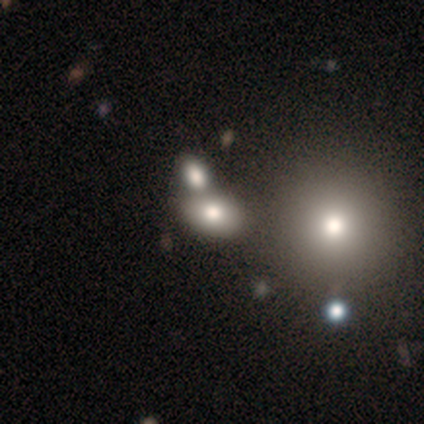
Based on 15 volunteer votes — A smooth galaxy with no disk features (60%) that is in between round and cigar-shaped (78%).

Vote fractions:
- Smooth or featured? smooth: 60% / star or artifact: 27% / featured or disk: 13%
- How rounded? in between: 78% / round: 22% / cigar-shaped: 0%
- Merging? none: 64% / merger: 27% / minor disturbance: 9% / major disturbance: 0%